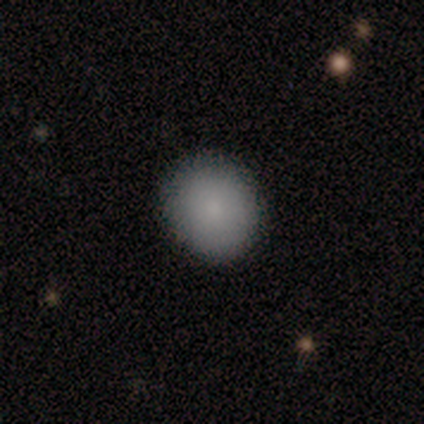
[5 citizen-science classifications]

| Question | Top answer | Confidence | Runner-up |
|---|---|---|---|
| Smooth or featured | smooth | 80% | featured or disk (20%) |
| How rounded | round | 100% | — |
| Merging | none | 60% | minor disturbance (20%) |